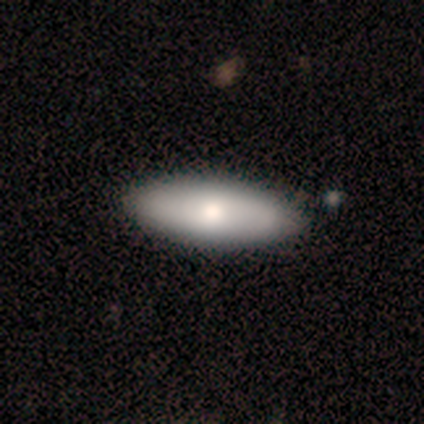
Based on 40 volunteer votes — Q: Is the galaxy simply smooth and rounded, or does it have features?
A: smooth — 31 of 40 (78%).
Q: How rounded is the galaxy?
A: in between — 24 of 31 (77%).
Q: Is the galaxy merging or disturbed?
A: none — 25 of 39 (64%).